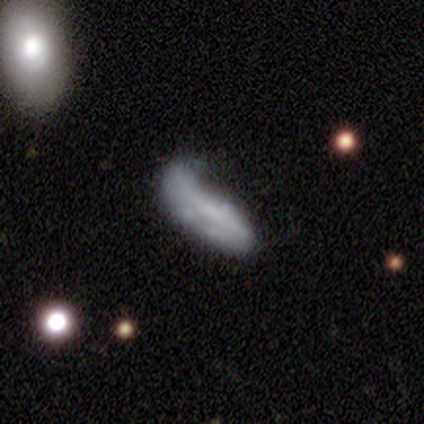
Volunteers were most divided on "smooth or featured" (2-way tie): smooth: 50%, featured or disk: 50%, star or artifact: 0%. More confident: how rounded — in between (100%); merging — minor disturbance (75%).